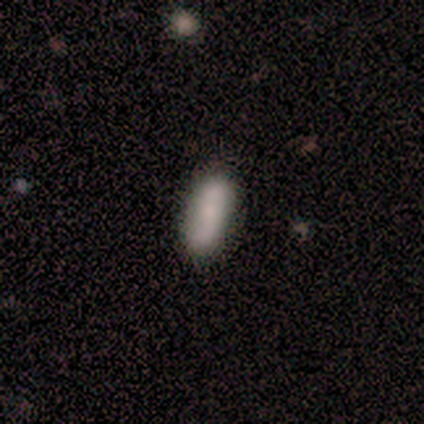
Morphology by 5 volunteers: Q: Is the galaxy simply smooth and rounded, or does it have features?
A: smooth — 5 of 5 (100%).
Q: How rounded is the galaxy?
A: in between — 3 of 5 (60%).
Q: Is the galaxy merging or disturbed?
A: none — 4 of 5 (80%).